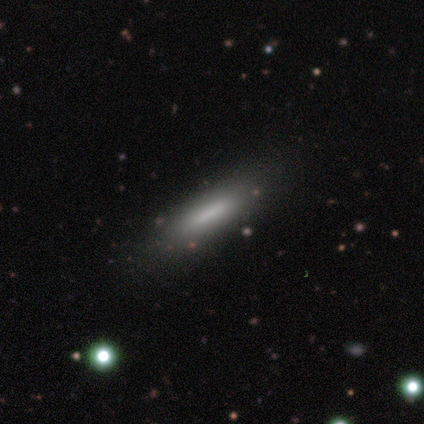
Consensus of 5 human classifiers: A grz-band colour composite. It shows a smooth galaxy with no disk features (60%) that is in between round and cigar-shaped (67%). Merging: none (100%).